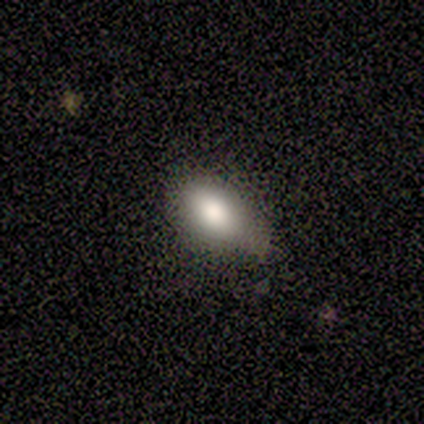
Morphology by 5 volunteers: A smooth galaxy with no disk features (100%) that is in between round and cigar-shaped (100%). Merging: none (40%, tied with minor disturbance).